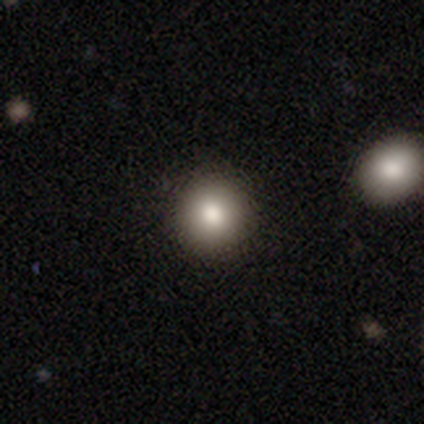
Smooth or featured?
  - smooth: 82% *
  - featured or disk: 10%
  - star or artifact: 8%
How rounded?
  - round: 85% *
  - in between: 15%
  - cigar-shaped: 0%
Merging?
  - none: 92% *
  - minor disturbance: 8%
  - major disturbance: 0%
  - merger: 0%